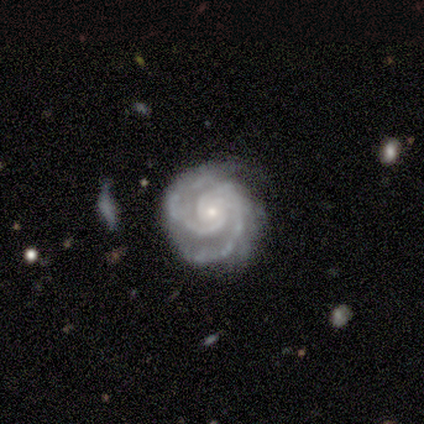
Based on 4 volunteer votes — Volunteers were most divided on "spiral winding": tight: 67%, medium: 33%, loose: 0%. More confident: edge-on disk — no (100%); bar — no (100%); spiral arms — yes (100%); bulge size — small (100%); smooth or featured — featured or disk (75%); spiral arm count — 2 (67%); merging — none (67%).